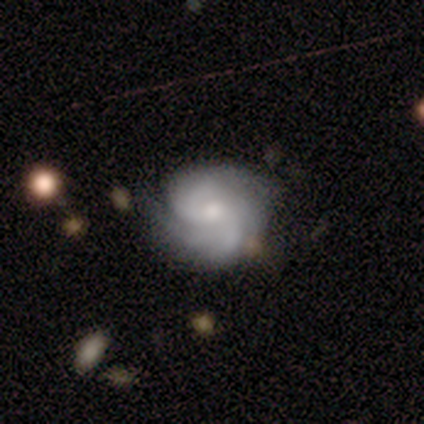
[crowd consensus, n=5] smooth-or-featured: featured or disk: 100% | smooth: 0% | star or artifact: 0%
  disk-edge-on: no: 100% | yes: 0%
    bar: no: 100% | strong: 0% | weak: 0%
    has-spiral-arms: yes: 100% | no: 0%
      spiral-winding: tight: 40% (tied) | medium: 40% (tied) | loose: 20%
      spiral-arm-count: 2: 40% | 3: 20% | 4: 20% | can't tell: 20% | 1: 0% | more than 4: 0%
    bulge-size: small: 60% | moderate: 40% | dominant: 0% | large: 0% | none: 0%
  merging: none: 100% | minor disturbance: 0% | major disturbance: 0% | merger: 0%